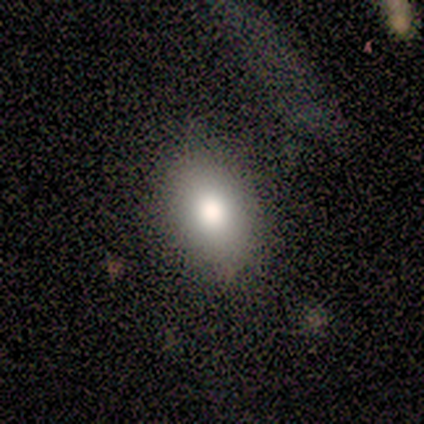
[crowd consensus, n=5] This appears to be a smooth galaxy with no disk features (100%) that is in between round and cigar-shaped (60%). Merging: none (100%).